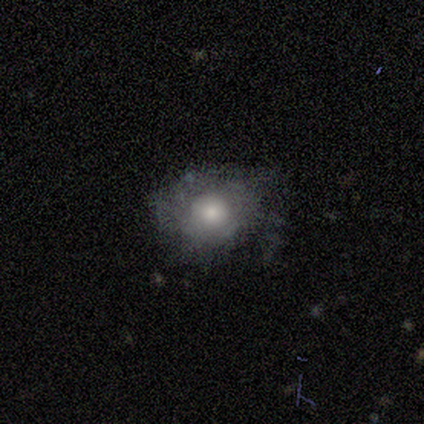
This appears to be a smooth galaxy with no disk features (71%) that is round (60%). Merging: minor disturbance (71%).